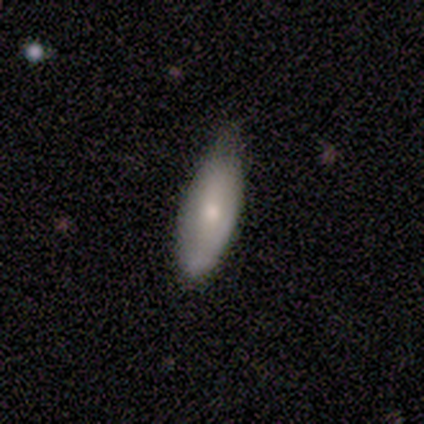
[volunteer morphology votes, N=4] Smooth or featured? smooth (75%)
How rounded? in between (67%)
Merging? none (50%, tied with minor disturbance)